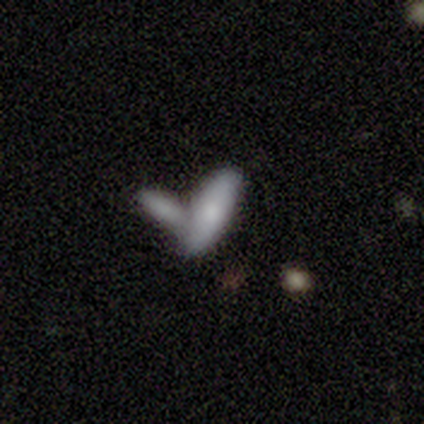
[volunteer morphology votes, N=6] This is likely a smooth galaxy (67%). How rounded: likely in between (75%). Merging: likely merger (67%).